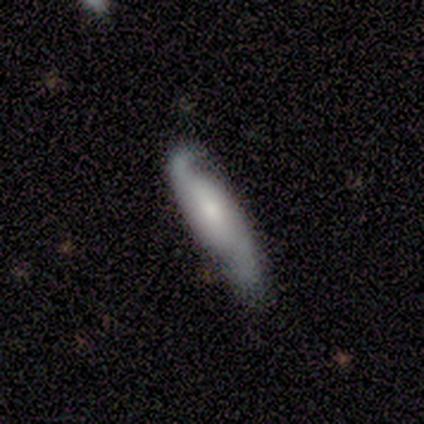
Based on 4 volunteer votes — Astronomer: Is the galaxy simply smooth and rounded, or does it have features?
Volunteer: featured or disk — 75%.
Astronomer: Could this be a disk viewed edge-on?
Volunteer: no — 67%.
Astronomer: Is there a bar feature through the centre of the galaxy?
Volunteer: weak — 50%, tied with no at 50%.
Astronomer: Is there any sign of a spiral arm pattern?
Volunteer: yes — 100%.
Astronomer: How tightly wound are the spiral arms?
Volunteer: medium — 50%, tied with loose at 50%.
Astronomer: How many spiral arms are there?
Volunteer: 2 — 100%.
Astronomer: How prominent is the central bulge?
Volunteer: moderate — 50%, tied with small at 50%.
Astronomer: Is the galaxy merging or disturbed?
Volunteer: none — 50%, tied with major disturbance at 50%.